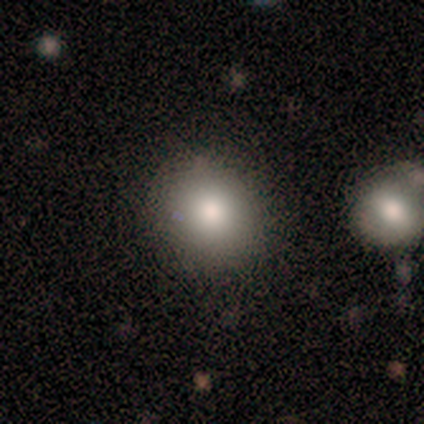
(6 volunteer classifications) Overall: smooth (100%). How rounded: round (100%). Merging: none (67%; minor disturbance 33%).